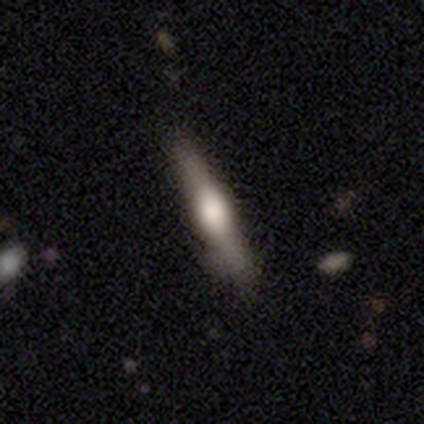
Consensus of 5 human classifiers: This appears to be a featured or disk galaxy (80%) viewed edge-on (100%) with a rounded central bulge (75%). Merging: none (80%).